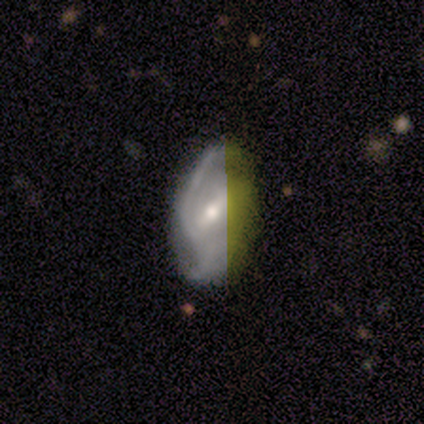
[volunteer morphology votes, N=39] featured or disk 77%, smooth 21%, star or artifact 3%. Down the decision tree: edge-on disk — no (90%); bar — weak (56%); spiral arms — yes (93%); spiral arm count — 2 (76%); spiral winding — medium (52%); bulge size — moderate (67%); merging — none (66%).